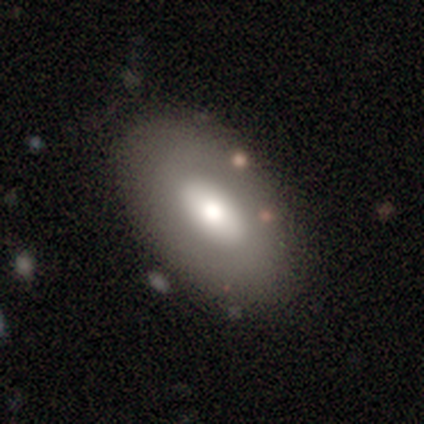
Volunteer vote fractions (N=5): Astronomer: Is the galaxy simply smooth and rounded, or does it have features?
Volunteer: smooth — 60% (runner-up: featured or disk, 40%).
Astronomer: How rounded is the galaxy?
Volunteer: in between — 100%.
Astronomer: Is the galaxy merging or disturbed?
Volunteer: none — 80%.